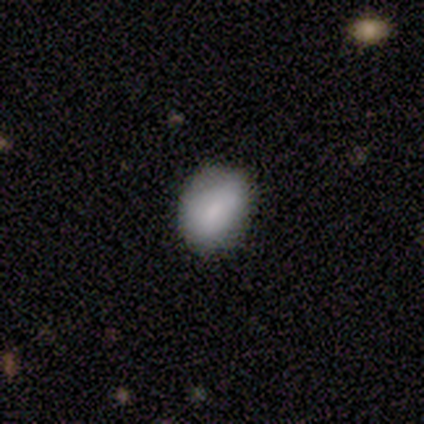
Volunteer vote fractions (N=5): A smooth galaxy with no disk features (100%) that is round (60%). Merging: none (80%).